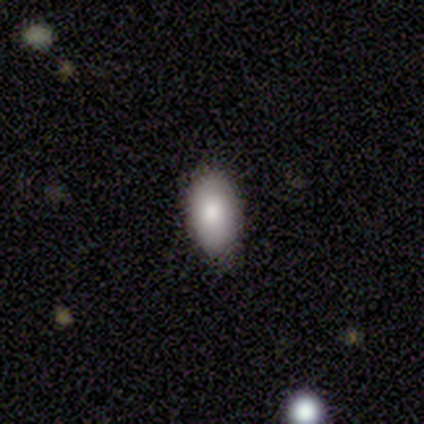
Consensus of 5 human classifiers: Smooth or featured?
  - smooth: 100% *
  - featured or disk: 0%
  - star or artifact: 0%
How rounded?
  - in between: 100% *
  - round: 0%
  - cigar-shaped: 0%
Merging?
  - none: 100% *
  - minor disturbance: 0%
  - major disturbance: 0%
  - merger: 0%